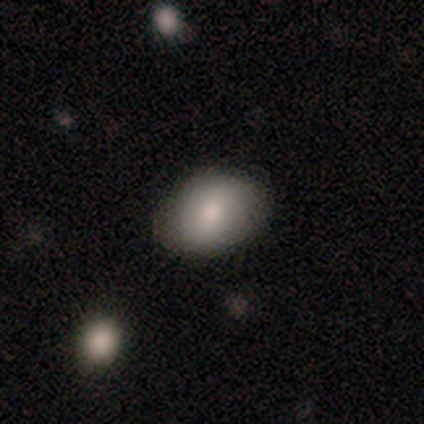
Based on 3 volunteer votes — smooth 67%, featured or disk 33%, star or artifact 0%. Down the decision tree: how rounded — round (50%, tied with in between); merging — none (100%).